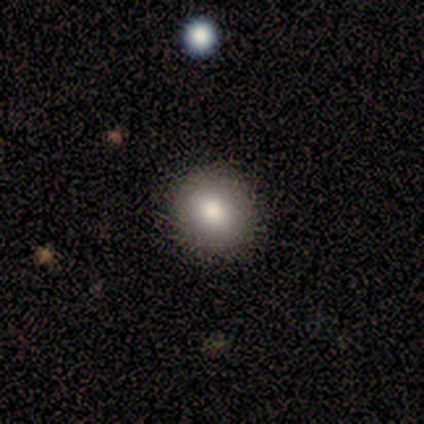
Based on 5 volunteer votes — Smooth or featured?
  - smooth: 60% *
  - featured or disk: 20%
  - star or artifact: 20%
How rounded?
  - round: 67% *
  - in between: 33%
  - cigar-shaped: 0%
Merging?
  - none: 100% *
  - minor disturbance: 0%
  - major disturbance: 0%
  - merger: 0%